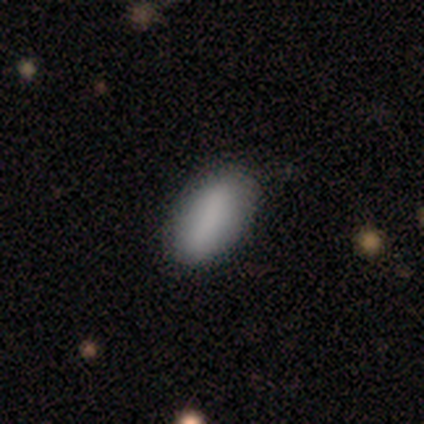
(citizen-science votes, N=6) Smooth or featured? 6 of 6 (100%) said smooth. How rounded? 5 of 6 (83%) said in between. Merging? 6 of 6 (100%) said none.